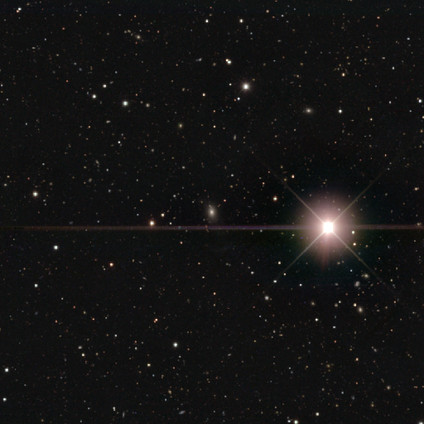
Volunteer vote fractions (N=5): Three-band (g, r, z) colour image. It shows a star or artifact, not a galaxy (80%).